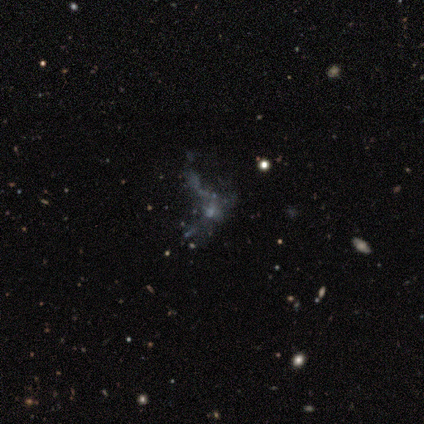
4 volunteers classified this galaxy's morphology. type=featured or disk (50%, tied with star or artifact); edge-on=no (100%); bar=no (100%); spiral arms=no (100%); bulge=small (50%, tied with none); merging=major disturbance (100%).